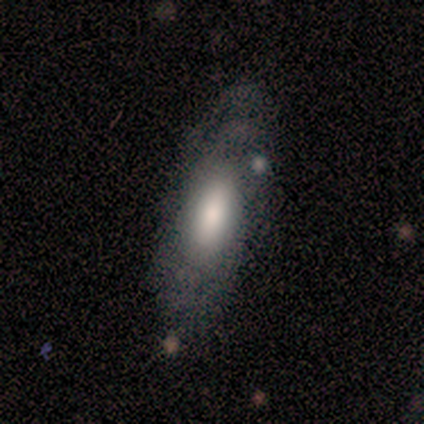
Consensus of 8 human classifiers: Q: Smooth or featured?
A: featured or disk (50%); runner-up: smooth (38%)
Q: Edge-on disk?
A: no (100%)
Q: Bar?
A: no (75%); runner-up: weak (25%)
Q: Spiral arms?
A: no (75%); runner-up: yes (25%)
Q: Bulge size?
A: large (75%); runner-up: none (25%)
Q: Merging?
A: none (57%); runner-up: minor disturbance (43%)